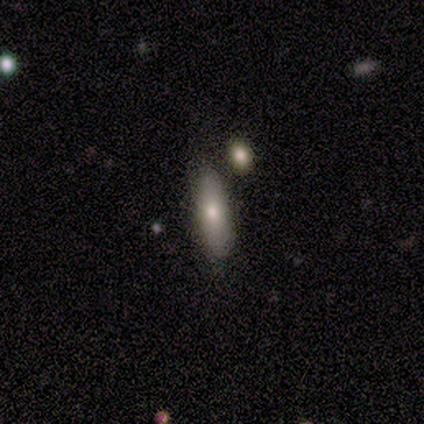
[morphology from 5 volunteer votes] This is likely a smooth galaxy (60%). How rounded: likely in between (67%). Merging: likely none (60%).